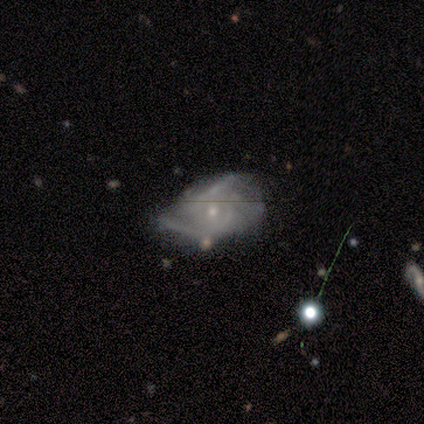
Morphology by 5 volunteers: This is likely a featured or disk galaxy (60%). It is clearly not viewed edge-on (100%). Bar: likely weak (67%). Spiral arm pattern: clearly yes (100%). Spiral arm count: clearly 3 (100%). Spiral winding: marginally tight (33%, tied with medium and loose). Central bulge: likely small (67%). Merging: likely minor disturbance (75%).